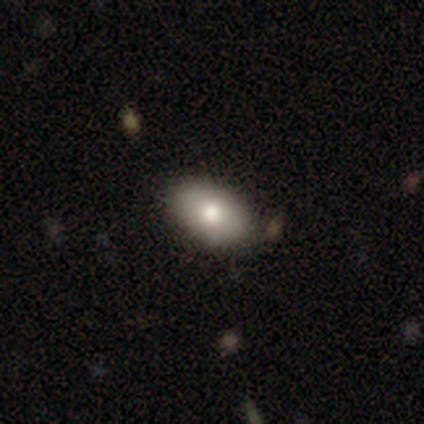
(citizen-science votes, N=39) A smooth galaxy with no disk features (79%) that is in between round and cigar-shaped (87%).

Vote fractions:
- Smooth or featured? smooth: 79% / featured or disk: 18% / star or artifact: 3%
- How rounded? in between: 87% / round: 13% / cigar-shaped: 0%
- Merging? none: 42% / minor disturbance: 8% / merger: 8% / major disturbance: 0%